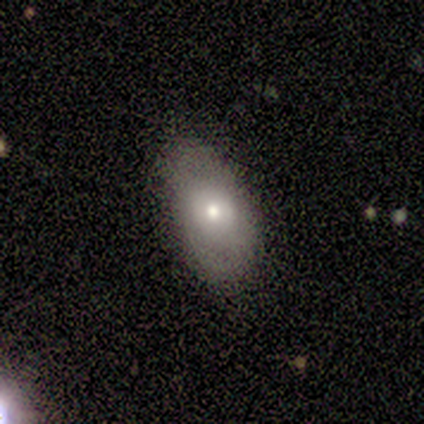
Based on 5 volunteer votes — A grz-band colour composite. It shows a smooth galaxy with no disk features (60%) that is in between round and cigar-shaped (100%). Merging: none (100%).